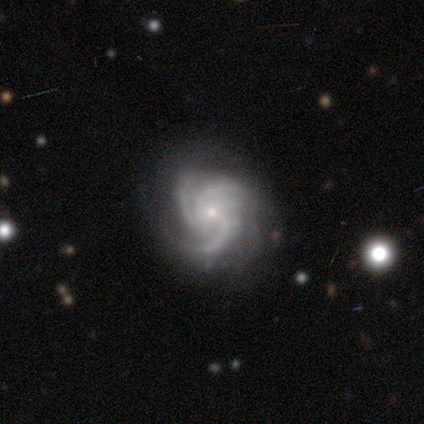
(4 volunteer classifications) Smooth or featured: featured or disk — 100%
Edge-on disk: no — 100%
Bar: weak — 50% (tied with no — 50%)
Spiral arms: yes — 75% (no — 25%)
Spiral winding: tight — 67% (medium — 33%)
Spiral arm count: 3 — 67% (4 — 33%)
Bulge size: small — 100%
Merging: none — 100%